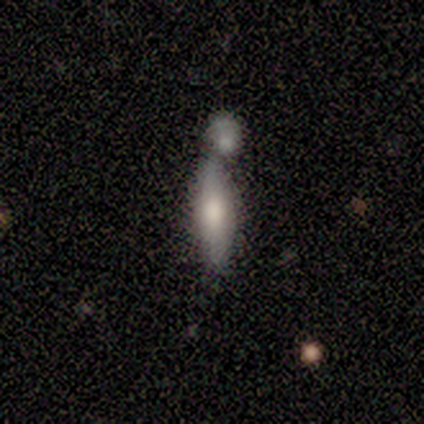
This appears to be a smooth galaxy with no disk features (83%) that is cigar-shaped (80%). Merging: merger (50%).